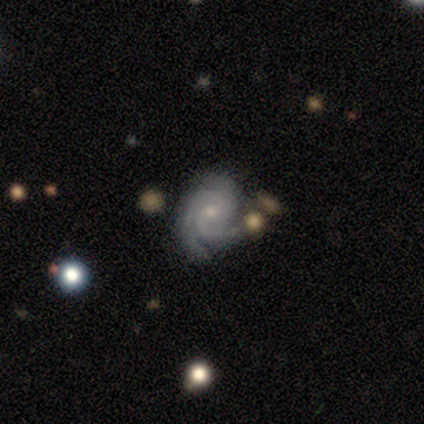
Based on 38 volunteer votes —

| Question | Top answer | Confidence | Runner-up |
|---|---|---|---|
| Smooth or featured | featured or disk | 79% | star or artifact (18%) |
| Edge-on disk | no | 97% | yes (3%) |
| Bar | no | 69% | weak (28%) |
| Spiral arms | yes | 97% | no (3%) |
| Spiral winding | medium | 46% | tight (39%) |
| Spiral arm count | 3 | 46% | 2 (32%) |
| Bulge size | small | 69% | moderate (31%) |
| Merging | none | 58% | minor disturbance (32%) |